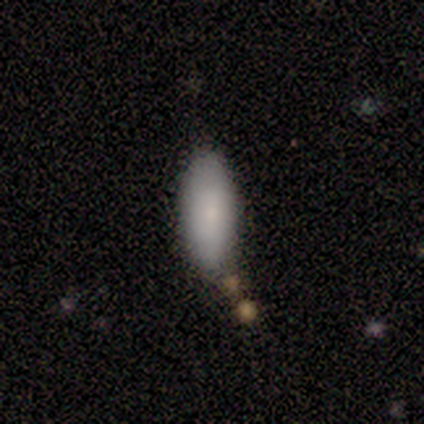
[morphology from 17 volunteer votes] Smooth or featured?
  - smooth: 76% *
  - featured or disk: 12%
  - star or artifact: 12%
How rounded?
  - in between: 54% *
  - cigar-shaped: 46%
  - round: 0%
Merging?
  - none: 80% *
  - minor disturbance: 13%
  - merger: 7%
  - major disturbance: 0%